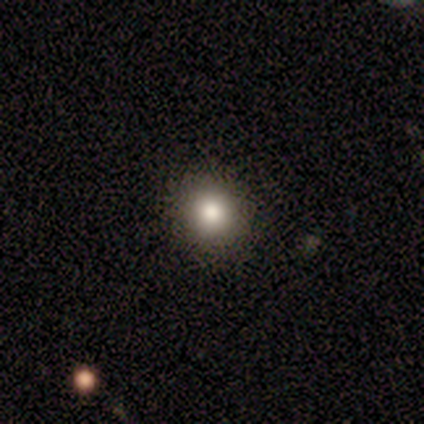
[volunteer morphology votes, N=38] type=smooth (84%); roundness=round (91%); merging=none (94%).